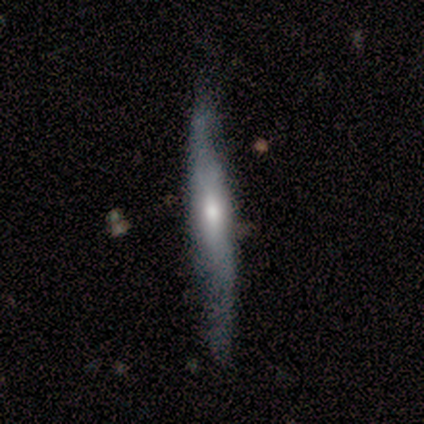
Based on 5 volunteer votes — Smooth or featured? featured or disk (60%)
Edge-on disk? yes (100%)
Edge-on bulge? rounded (100%)
Merging? none (60%)